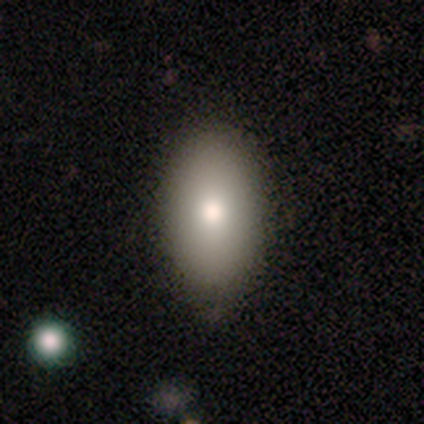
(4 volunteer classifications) Volunteers were most divided on "smooth or featured": smooth: 75%, featured or disk: 25%, star or artifact: 0%. More confident: how rounded — in between (100%); merging — none (100%).